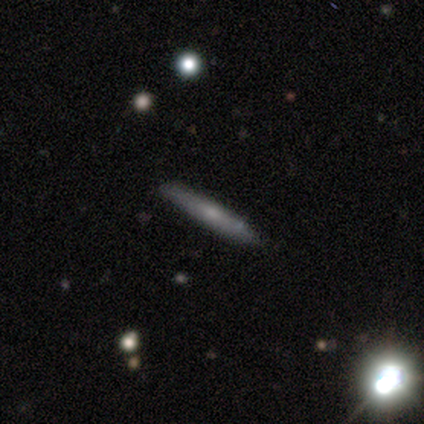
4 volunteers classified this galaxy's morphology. smooth-or-featured: smooth: 75% | featured or disk: 25% | star or artifact: 0%
  how-rounded: cigar-shaped: 100% | round: 0% | in between: 0%
  merging: none: 100% | minor disturbance: 0% | major disturbance: 0% | merger: 0%